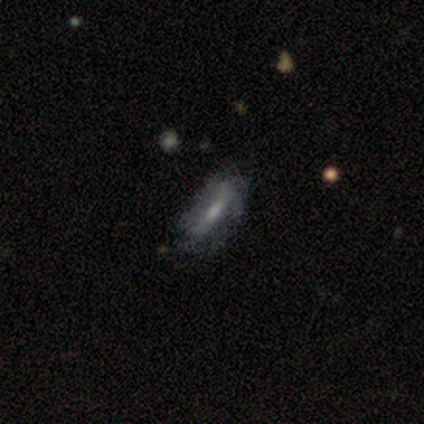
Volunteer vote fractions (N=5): featured or disk 60%, smooth 40%, star or artifact 0%. Down the decision tree: edge-on disk — no (100%); bar — no (67%); spiral arms — no (67%); bulge size — moderate (67%); merging — none (80%).